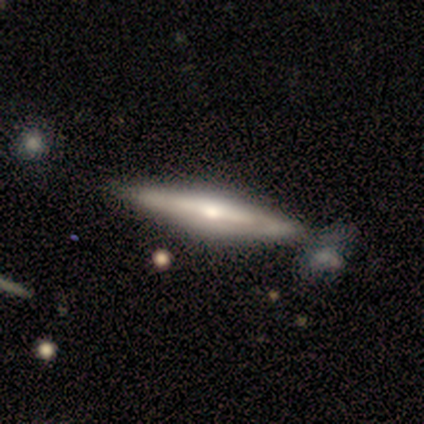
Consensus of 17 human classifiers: This appears to be a featured or disk galaxy (88%) viewed edge-on (80%) with a rounded central bulge (67%). Merging: none (65%).